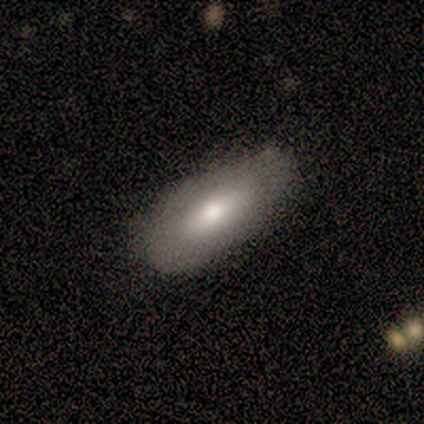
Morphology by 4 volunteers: smooth-or-featured: smooth: 75% | featured or disk: 25% | star or artifact: 0%
  how-rounded: in between: 100% | round: 0% | cigar-shaped: 0%
  merging: none: 75% | major disturbance: 25% | minor disturbance: 0% | merger: 0%